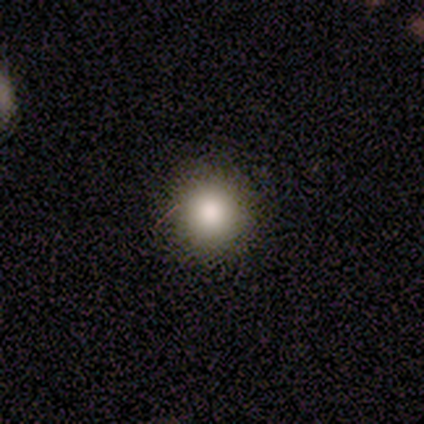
This is likely a smooth galaxy (60%). How rounded: clearly round (100%). Merging: clearly none (100%).